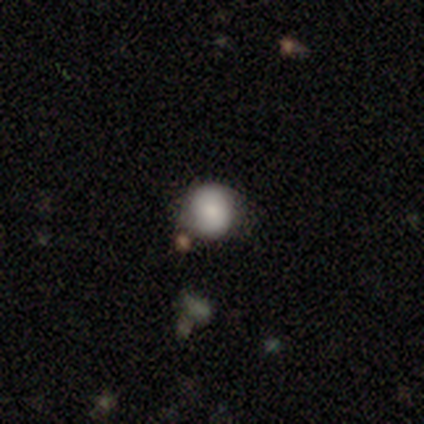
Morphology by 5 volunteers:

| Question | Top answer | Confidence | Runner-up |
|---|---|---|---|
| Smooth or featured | smooth | 100% | — |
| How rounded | round | 80% | in between (20%) |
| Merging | none | 100% | — |